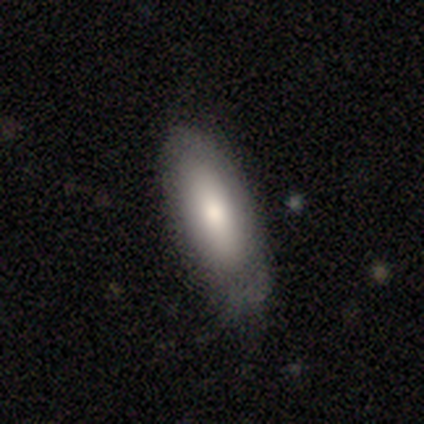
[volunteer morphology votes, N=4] Smooth or featured? smooth (75%)
How rounded? in between (100%)
Merging? none (50%, tied with minor disturbance)